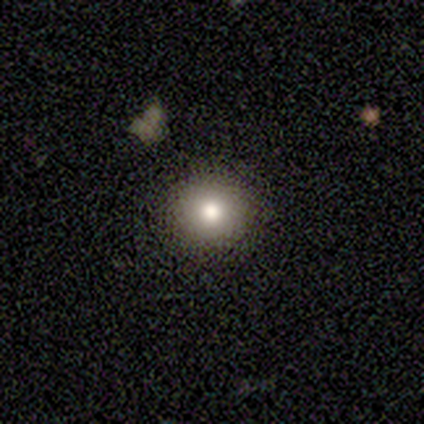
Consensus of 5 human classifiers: A smooth galaxy with no disk features (100%) that is round (100%). Merging: none (100%).